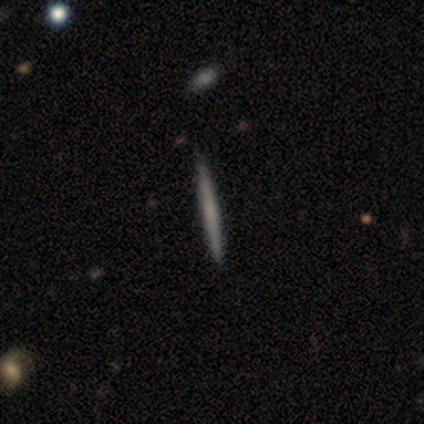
Q: Smooth or featured?
A: smooth (40%); tied with: featured or disk (40%)
Q: How rounded?
A: cigar-shaped (100%)
Q: Merging?
A: none (75%); runner-up: minor disturbance (25%)